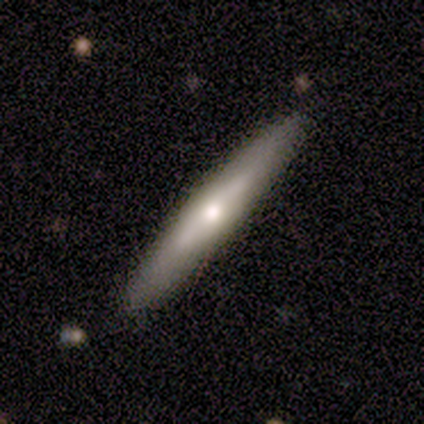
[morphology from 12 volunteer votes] Smooth or featured? featured or disk (67%)
Edge-on disk? yes (62%)
Edge-on bulge? rounded (100%)
Merging? none (100%)